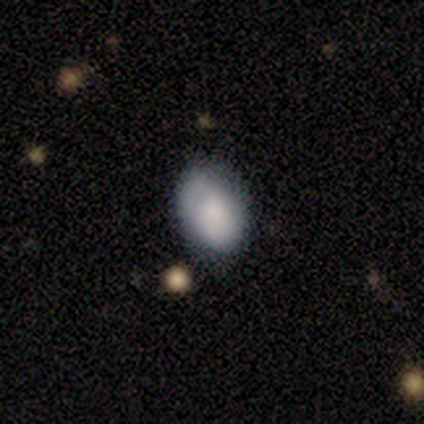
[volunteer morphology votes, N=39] smooth_or_featured: smooth (p=0.87) [alt: featured or disk p=0.08]
how_rounded: in between (p=0.91) [alt: round p=0.09]
merging: none (p=0.57) [alt: minor disturbance p=0.32]